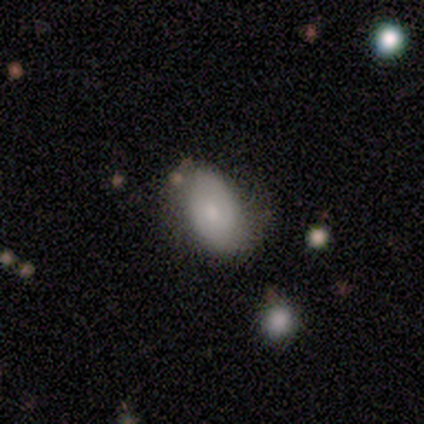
Q: Smooth or featured?
A: smooth (75%); runner-up: featured or disk (25%)
Q: How rounded?
A: in between (100%)
Q: Merging?
A: none (100%)